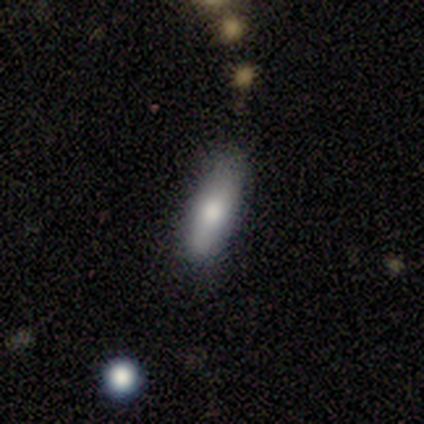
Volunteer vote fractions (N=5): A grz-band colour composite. It shows a smooth galaxy with no disk features (80%) that is in between round and cigar-shaped (50%, tied with cigar-shaped). Merging: none (80%).